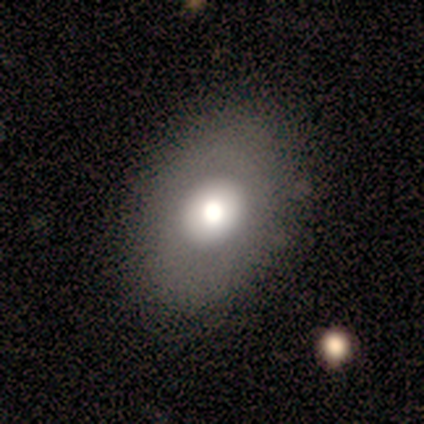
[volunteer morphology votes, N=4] type=smooth (100%); roundness=in between (75%); merging=none (75%).